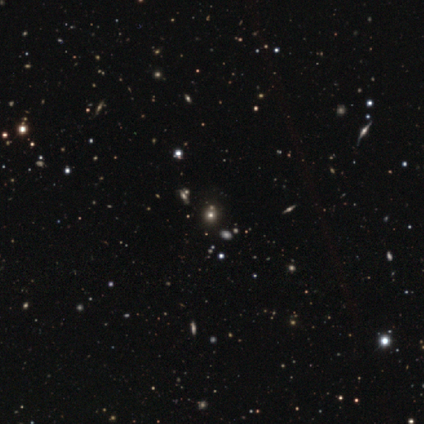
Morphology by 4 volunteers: Q: Smooth or featured?
A: smooth (75%); runner-up: star or artifact (25%)
Q: How rounded?
A: round (67%); runner-up: in between (33%)
Q: Merging?
A: none (67%); runner-up: merger (33%)